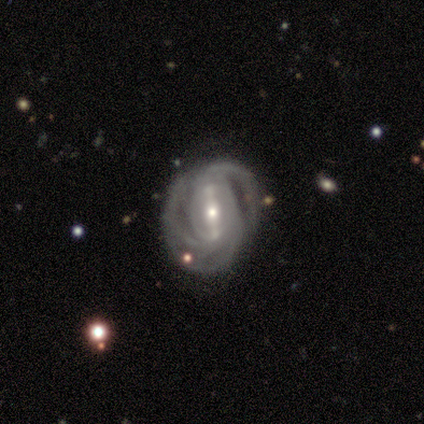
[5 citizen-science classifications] Smooth or featured? 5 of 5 (100%) said featured or disk. Edge-on disk? 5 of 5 (100%) said no. Bar? 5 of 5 (100%) said strong. Spiral arms? 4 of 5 (80%) said yes. Spiral winding? 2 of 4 (50%) said tight. Spiral arm count? 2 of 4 (50%) said 3. Bulge size? 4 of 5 (80%) said small. Merging? 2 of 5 (40%, tied with minor disturbance) said none.